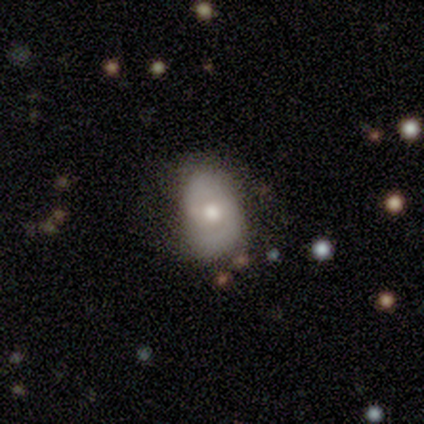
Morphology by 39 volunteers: smooth-or-featured: featured or disk: 67% | smooth: 28% | star or artifact: 5%
  disk-edge-on: no: 96% | yes: 4%
    bar: weak: 60% | no: 36% | strong: 4%
    has-spiral-arms: yes: 84% | no: 16%
      spiral-winding: medium: 52% | tight: 29% | loose: 19%
      spiral-arm-count: 2: 81% | can't tell: 14% | 1: 5% | 3: 0% | 4: 0% | more than 4: 0%
    bulge-size: moderate: 72% | small: 16% | large: 8% | dominant: 4% | none: 0%
  merging: none: 76% | minor disturbance: 19% | major disturbance: 3% | merger: 0%